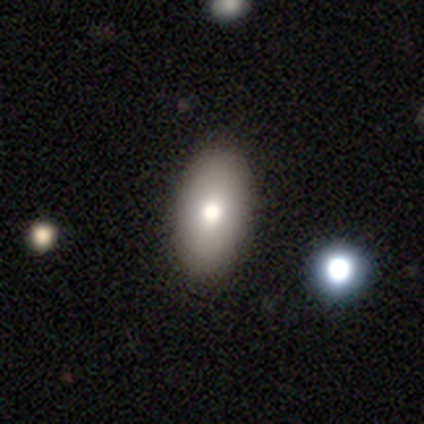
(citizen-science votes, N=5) Morphology: type=featured or disk (60%); edge-on=no (67%); bar=no (100%); spiral arms=no (100%); bulge=large (100%); merging=none (100%).